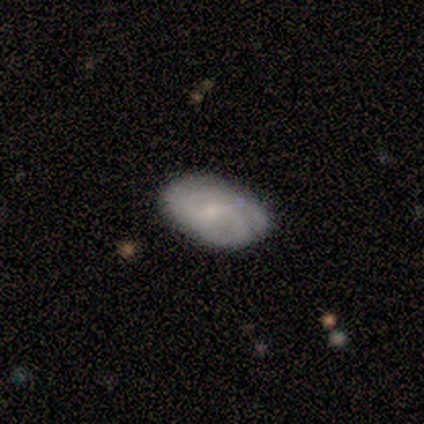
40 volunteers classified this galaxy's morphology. Overall: featured or disk (62%; smooth 35%). Edge-on disk: no (92%). Bar: weak (74%). Spiral arms: yes (96%). Spiral arm count: can't tell (41%; 2 32%). Spiral winding: tight (50%; medium 32%). Bulge size: small (78%). Merging: none (67%; minor disturbance 28%).